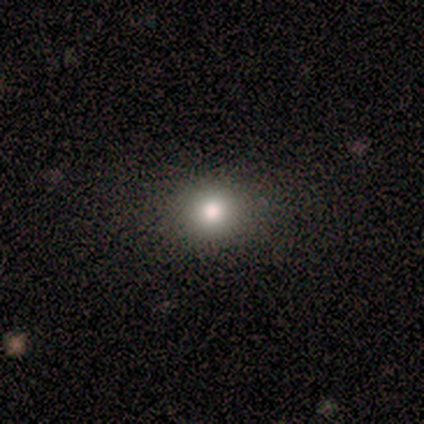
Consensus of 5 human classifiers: smooth_or_featured: smooth (p=0.80) [alt: featured or disk p=0.20]
how_rounded: round (p=1.00)
merging: none (p=1.00)